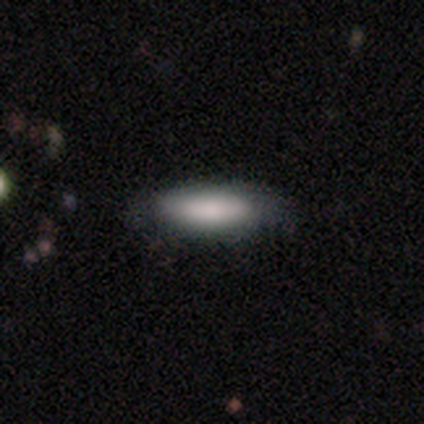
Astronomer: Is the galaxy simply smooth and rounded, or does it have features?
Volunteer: smooth — 80%.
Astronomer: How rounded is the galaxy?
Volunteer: in between — 50%, tied with cigar-shaped at 50%.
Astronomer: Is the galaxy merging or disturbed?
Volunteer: none — 100%.